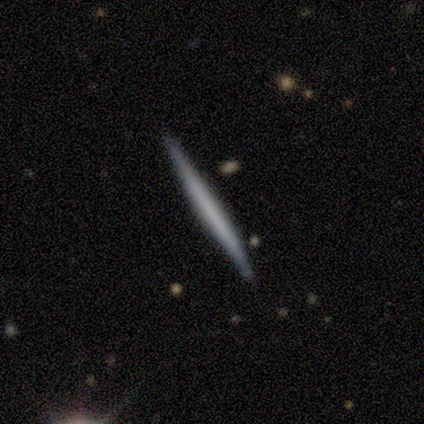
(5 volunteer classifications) A featured or disk galaxy (80%) viewed edge-on (100%) with no central bulge (100%).

Vote fractions:
- Smooth or featured? featured or disk: 80% / smooth: 20% / star or artifact: 0%
- Edge-on disk? yes: 100% / no: 0%
- Edge-on bulge? none: 100% / boxy: 0% / rounded: 0%
- Merging? none: 100% / minor disturbance: 0% / major disturbance: 0% / merger: 0%